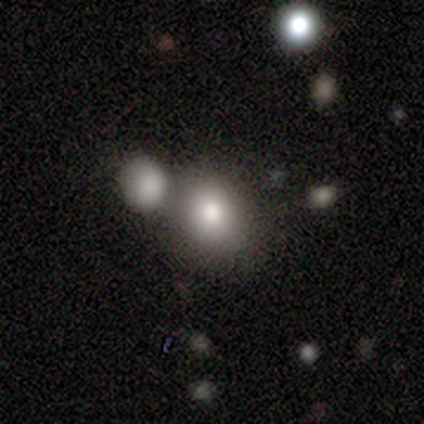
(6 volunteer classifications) smooth-or-featured: smooth: 67% | star or artifact: 33% | featured or disk: 0%
  how-rounded: in between: 75% | round: 25% | cigar-shaped: 0%
  merging: none: 50% (tied) | merger: 50% (tied) | minor disturbance: 0% | major disturbance: 0%